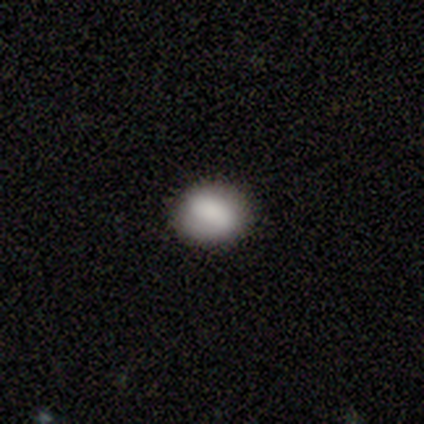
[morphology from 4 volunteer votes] smooth-or-featured: smooth: 100% | featured or disk: 0% | star or artifact: 0%
  how-rounded: in between: 75% | round: 25% | cigar-shaped: 0%
  merging: none: 100% | minor disturbance: 0% | major disturbance: 0% | merger: 0%